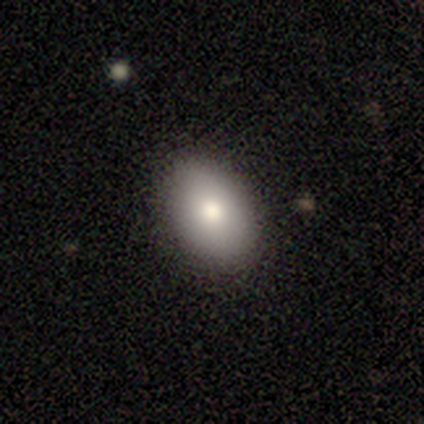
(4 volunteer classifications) Volunteers were most divided on "smooth or featured": smooth: 75%, star or artifact: 25%, featured or disk: 0%. More confident: how rounded — in between (100%); merging — none (100%).